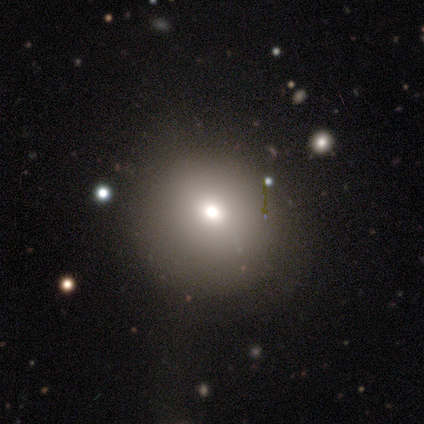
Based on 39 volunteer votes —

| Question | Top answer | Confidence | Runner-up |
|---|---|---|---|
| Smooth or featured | smooth | 74% | star or artifact (15%) |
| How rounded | round | 83% | in between (17%) |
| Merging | none | 61% | minor disturbance (24%) |